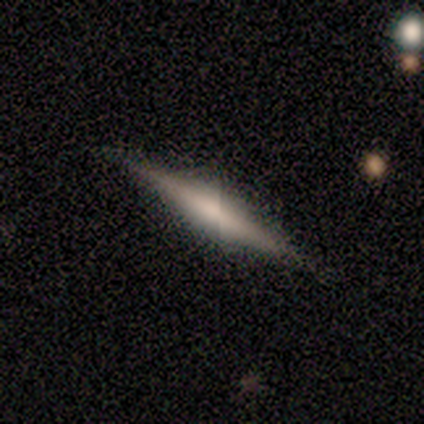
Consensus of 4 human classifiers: Q: Smooth or featured?
A: smooth (50%); tied with: featured or disk (50%)
Q: How rounded?
A: cigar-shaped (100%)
Q: Merging?
A: none (100%)